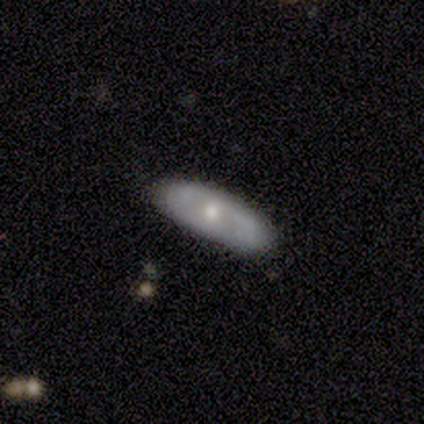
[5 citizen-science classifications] Smooth or featured? 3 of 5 (60%) said smooth. How rounded? 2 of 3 (67%) said in between. Merging? 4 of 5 (80%) said none.